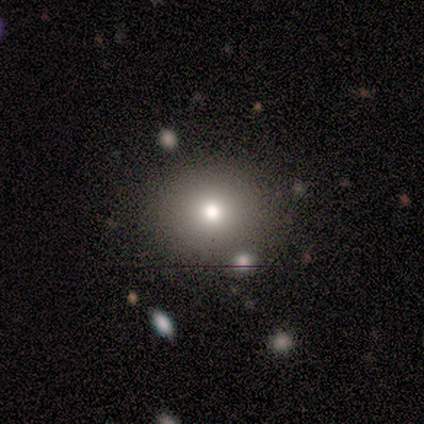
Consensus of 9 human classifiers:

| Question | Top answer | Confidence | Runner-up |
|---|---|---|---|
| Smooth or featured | smooth | 67% | star or artifact (22%) |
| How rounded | round | 67% | in between (33%) |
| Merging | none | 57% | major disturbance (29%) |